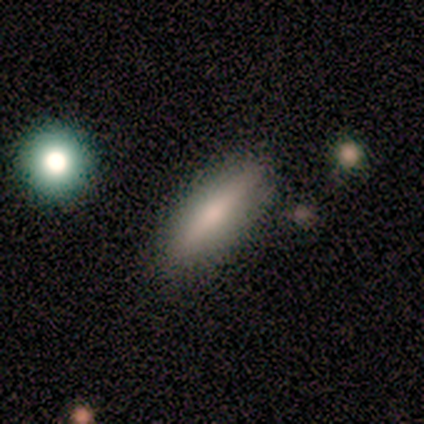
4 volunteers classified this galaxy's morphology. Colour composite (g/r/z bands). It shows a smooth galaxy with no disk features (50%, tied with featured or disk) that is in between round and cigar-shaped (50%, tied with cigar-shaped). Merging: none (100%).